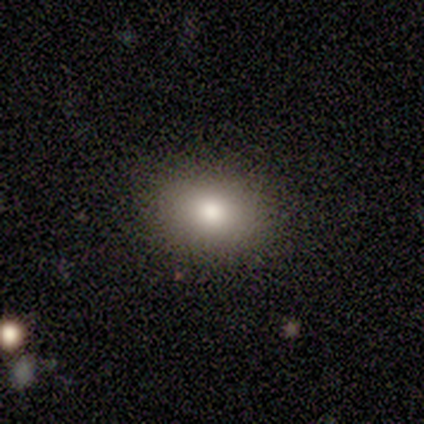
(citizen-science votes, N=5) This appears to be a smooth galaxy with no disk features (80%) that is round (50%, tied with in between). Merging: none (100%).